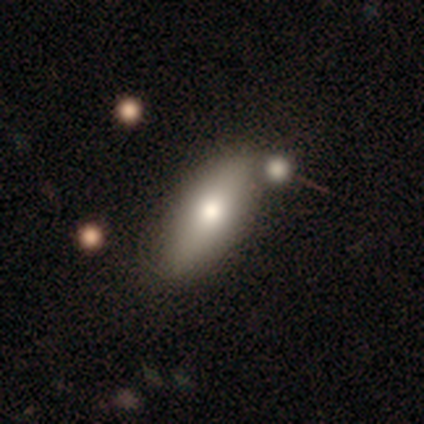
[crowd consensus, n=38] Smooth or featured? smooth (74%)
How rounded? in between (71%)
Merging? none (53%)